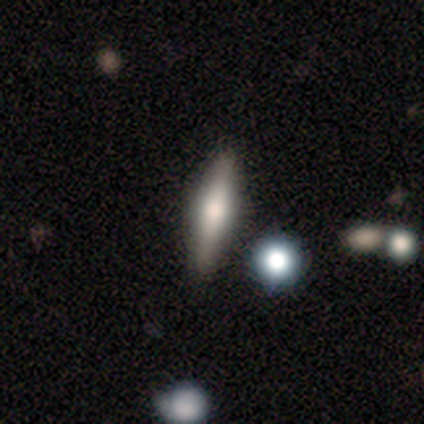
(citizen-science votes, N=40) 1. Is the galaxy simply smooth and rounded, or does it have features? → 52% smooth, 48% featured or disk, 0% star or artifact.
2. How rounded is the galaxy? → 76% cigar-shaped, 24% in between, 0% round.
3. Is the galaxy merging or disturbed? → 82% none, 8% minor disturbance, 5% major disturbance, 5% merger.